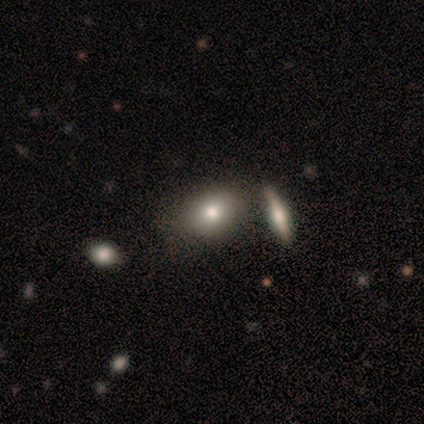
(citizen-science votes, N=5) This appears to be a smooth galaxy with no disk features (40%, tied with star or artifact) that is in between round and cigar-shaped (100%). Merging: none (67%).